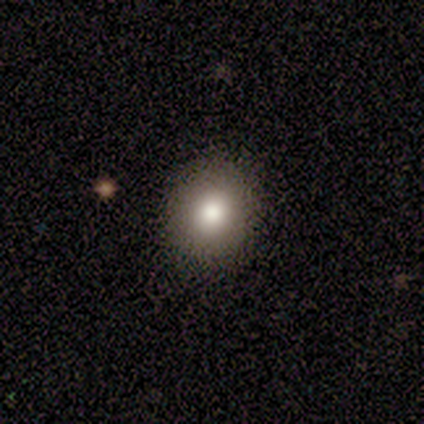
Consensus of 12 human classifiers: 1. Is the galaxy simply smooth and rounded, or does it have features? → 92% smooth, 8% star or artifact, 0% featured or disk.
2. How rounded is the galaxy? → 100% round, 0% in between, 0% cigar-shaped.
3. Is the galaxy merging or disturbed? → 100% none, 0% minor disturbance, 0% major disturbance, 0% merger.